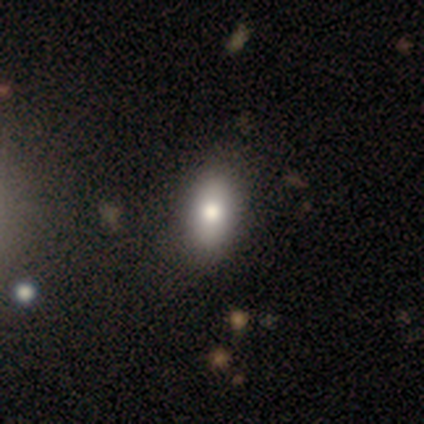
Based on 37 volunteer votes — Smooth or featured? smooth (78%)
How rounded? in between (90%)
Merging? none (74%)